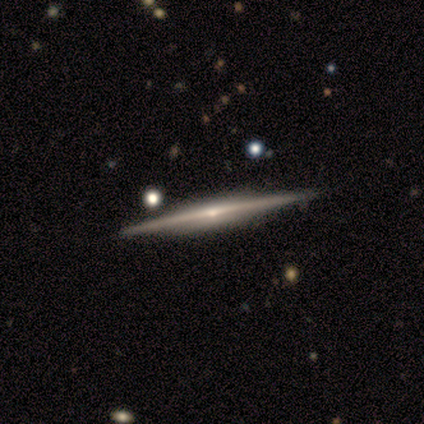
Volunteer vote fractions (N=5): This is clearly a featured or disk galaxy (80%). It is clearly viewed edge-on (100%). Edge-on bulge: possibly none (50%, tied with rounded). Merging: clearly none (80%).